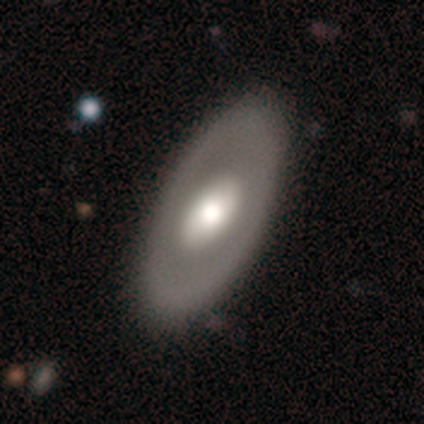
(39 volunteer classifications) Smooth or featured: smooth — 49% (tied with featured or disk — 49%)
How rounded: in between — 100%
Merging: none — 47% (minor disturbance — 8%)